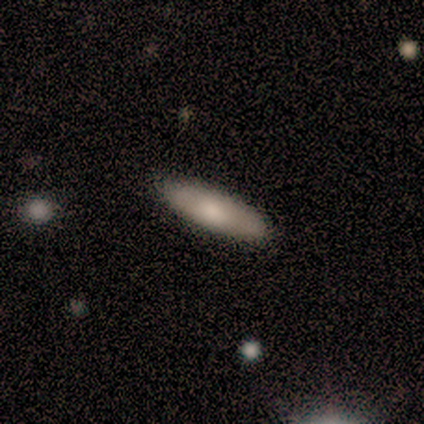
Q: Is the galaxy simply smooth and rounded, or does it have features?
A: smooth — 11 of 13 (85%).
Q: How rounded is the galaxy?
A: cigar-shaped — 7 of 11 (64%).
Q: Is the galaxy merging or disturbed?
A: none — 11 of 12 (92%).